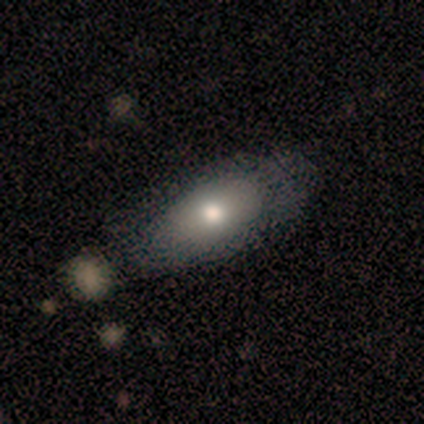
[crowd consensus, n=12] Overall: smooth (58%; featured or disk 33%). How rounded: in between (100%). Merging: none (82%).